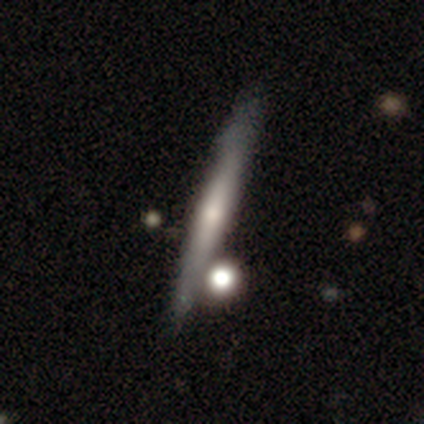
featured or disk 67%, smooth 31%, star or artifact 2%. Down the decision tree: edge-on disk — yes (86%); edge-on bulge — rounded (62%); merging — none (78%).